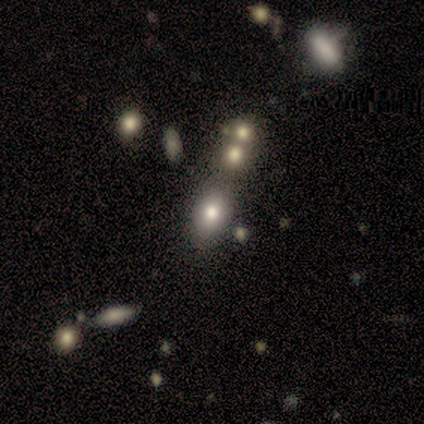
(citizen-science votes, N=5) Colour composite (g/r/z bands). It shows a smooth galaxy with no disk features (80%) that is in between round and cigar-shaped (75%). Merging: none (100%).